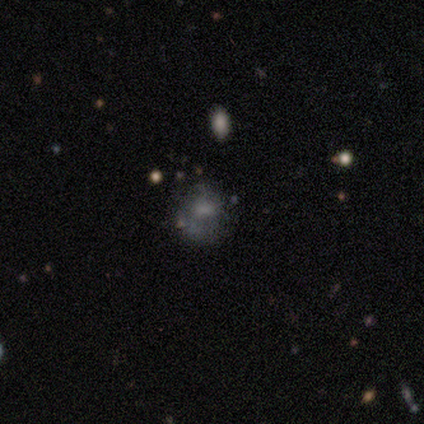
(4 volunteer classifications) Smooth or featured? 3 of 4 (75%) said smooth. How rounded? 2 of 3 (67%) said in between. Merging? 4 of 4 (100%) said none.